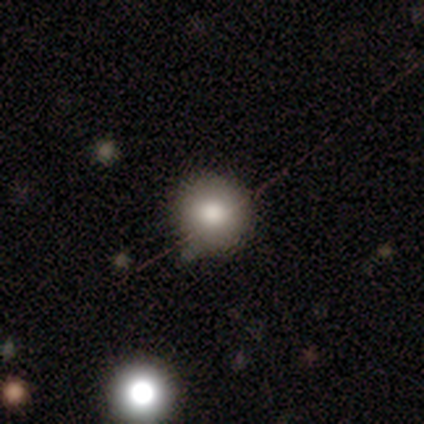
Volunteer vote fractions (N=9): A smooth galaxy with no disk features (89%) that is round (100%). Merging: none (88%).